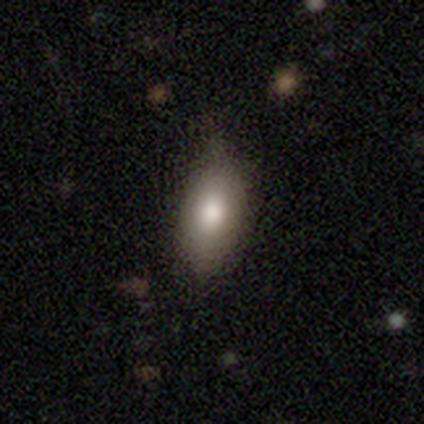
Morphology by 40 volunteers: This appears to be a smooth galaxy with no disk features (80%) that is in between round and cigar-shaped (72%). Merging: none (59%).